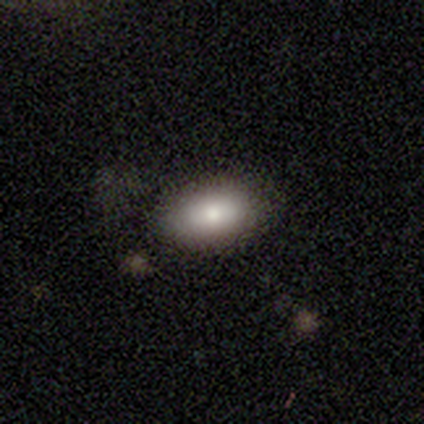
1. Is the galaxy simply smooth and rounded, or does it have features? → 60% smooth, 40% featured or disk, 0% star or artifact.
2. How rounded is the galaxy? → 100% in between, 0% round, 0% cigar-shaped.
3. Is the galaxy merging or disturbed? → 100% none, 0% minor disturbance, 0% major disturbance, 0% merger.